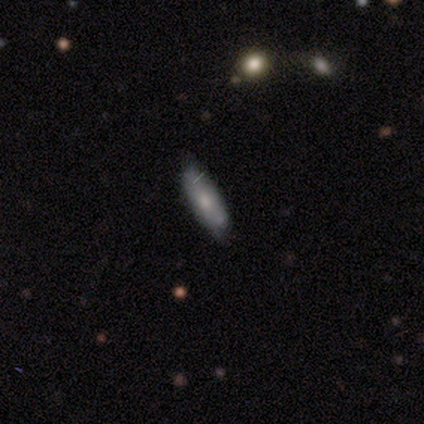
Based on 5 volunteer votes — Volunteers were most divided on "smooth or featured" (2-way tie): smooth: 40%, featured or disk: 40%, star or artifact: 20%. More confident: how rounded — in between (100%); merging — none (75%).